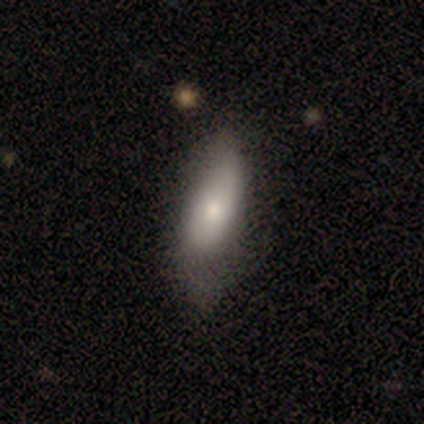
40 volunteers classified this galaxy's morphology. This appears to be a smooth galaxy with no disk features (70%) that is in between round and cigar-shaped (75%). Merging: minor disturbance (32%).